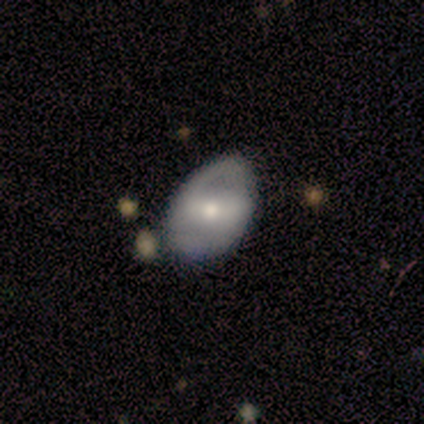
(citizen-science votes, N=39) Q: Smooth or featured?
A: featured or disk (56%); runner-up: smooth (38%)
Q: Edge-on disk?
A: no (95%); runner-up: yes (5%)
Q: Bar?
A: strong (43%); tied with: weak (43%)
Q: Spiral arms?
A: yes (52%); runner-up: no (48%)
Q: Spiral winding?
A: medium (36%); tied with: loose (36%)
Q: Spiral arm count?
A: 2 (82%); runner-up: 1 (18%)
Q: Bulge size?
A: moderate (43%); tied with: small (43%)
Q: Merging?
A: none (54%); runner-up: minor disturbance (38%)